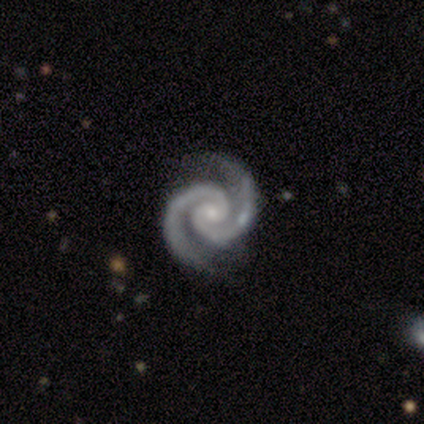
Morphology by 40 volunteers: Smooth or featured: featured or disk — 95% (star or artifact — 5%)
Edge-on disk: no — 95% (yes — 5%)
Bar: no — 67% (weak — 22%)
Spiral arms: yes — 100%
Spiral winding: tight — 75% (medium — 25%)
Spiral arm count: 2 — 92% (3 — 3%)
Bulge size: small — 78% (moderate — 19%)
Merging: none — 82% (minor disturbance — 16%)